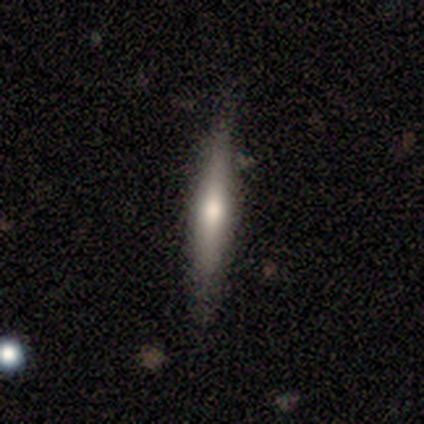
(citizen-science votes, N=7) Morphology: type=featured or disk (71%); edge-on=yes (100%); edge-on bulge=rounded (80%); merging=none (86%).